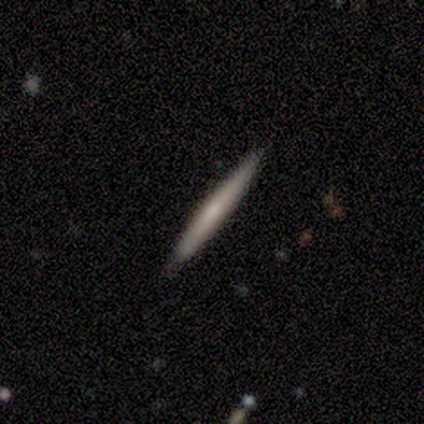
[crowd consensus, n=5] A smooth galaxy with no disk features (80%) that is cigar-shaped (100%).

Vote fractions:
- Smooth or featured? smooth: 80% / featured or disk: 20% / star or artifact: 0%
- How rounded? cigar-shaped: 100% / round: 0% / in between: 0%
- Merging? none: 100% / minor disturbance: 0% / major disturbance: 0% / merger: 0%